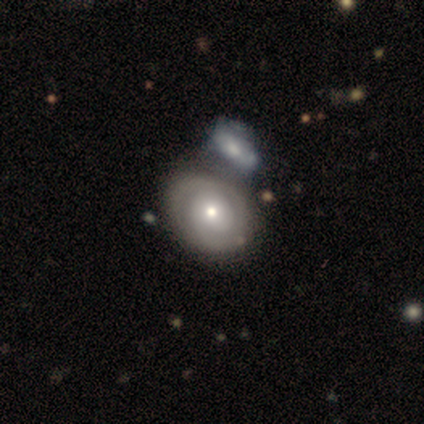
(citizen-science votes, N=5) Morphology: type=smooth (80%); roundness=in between (75%); merging=none (40%, tied with merger).